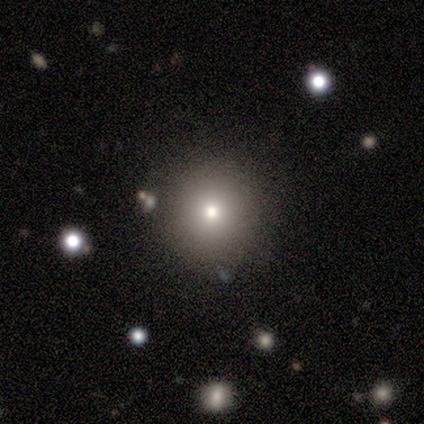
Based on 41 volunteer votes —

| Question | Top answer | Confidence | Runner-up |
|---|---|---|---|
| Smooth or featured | smooth | 88% | star or artifact (10%) |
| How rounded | round | 89% | in between (8%) |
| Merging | none | 89% | minor disturbance (8%) |